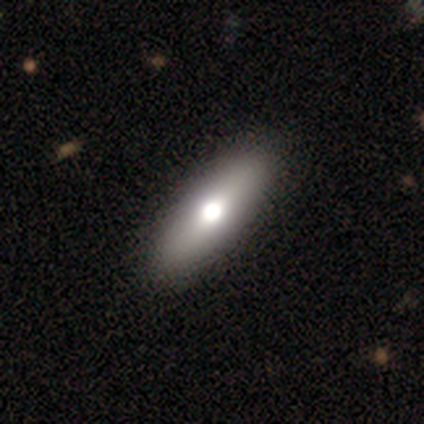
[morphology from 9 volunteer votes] Overall: smooth (67%; featured or disk 33%). How rounded: in between (67%; cigar-shaped 33%). Merging: none (89%).